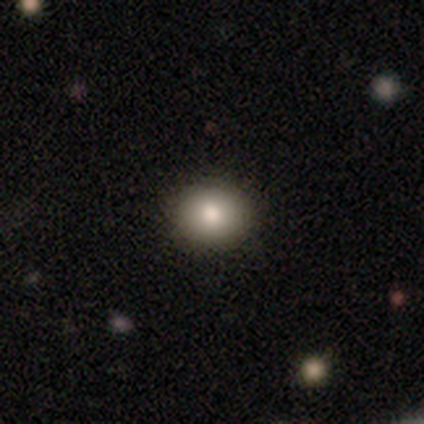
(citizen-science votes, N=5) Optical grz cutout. It shows a smooth galaxy with no disk features (80%) that is round (50%, tied with in between). Merging: none (100%).